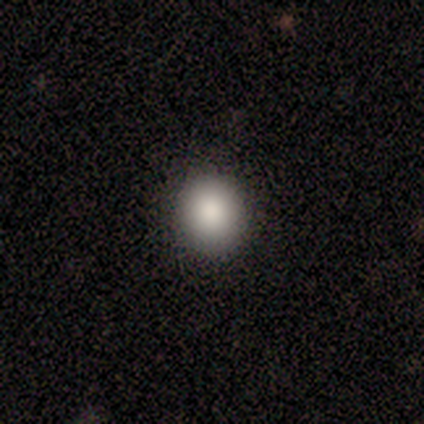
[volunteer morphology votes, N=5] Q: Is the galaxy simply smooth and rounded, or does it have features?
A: smooth — 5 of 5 (100%).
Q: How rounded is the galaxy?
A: round — 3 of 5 (60%).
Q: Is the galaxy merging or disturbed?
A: none — 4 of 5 (80%).